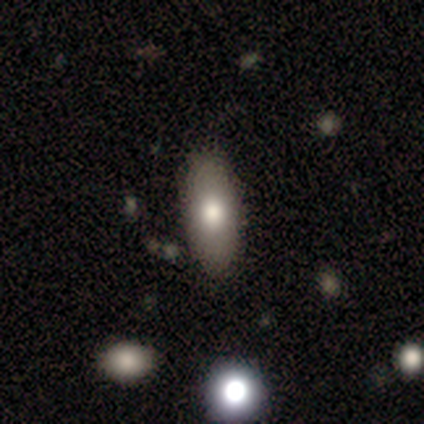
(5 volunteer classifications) Overall: smooth (80%). How rounded: in between (75%). Merging: none (80%).